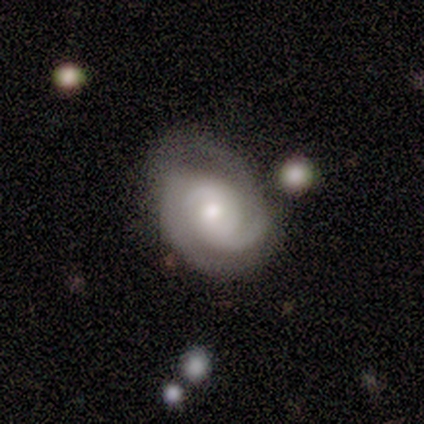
Volunteers were most divided on "bulge size": moderate: 67%, small: 33%, dominant: 0%, large: 0%, none: 0%. More confident: smooth or featured — featured or disk (100%); edge-on disk — no (100%); spiral arms — yes (100%); bar — no (67%); spiral winding — medium (67%); spiral arm count — can't tell (67%); merging — none (67%).